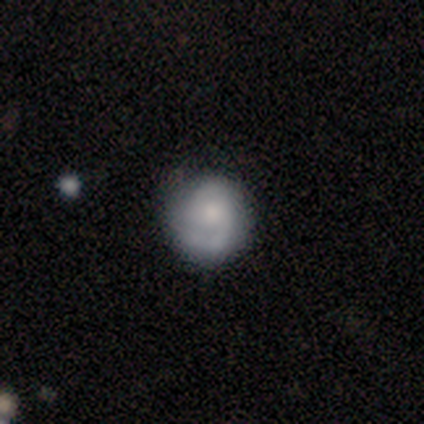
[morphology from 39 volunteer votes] Smooth or featured?
  - smooth: 44% *
  - featured or disk: 41%
  - star or artifact: 15%
How rounded?
  - round: 100% *
  - in between: 0%
  - cigar-shaped: 0%
Merging?
  - none: 79% *
  - minor disturbance: 18%
  - major disturbance: 3%
  - merger: 0%